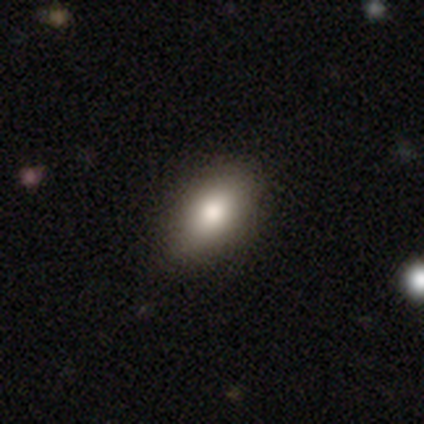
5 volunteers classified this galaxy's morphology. smooth 80%, star or artifact 20%, featured or disk 0%. Down the decision tree: how rounded — in between (100%); merging — none (100%).